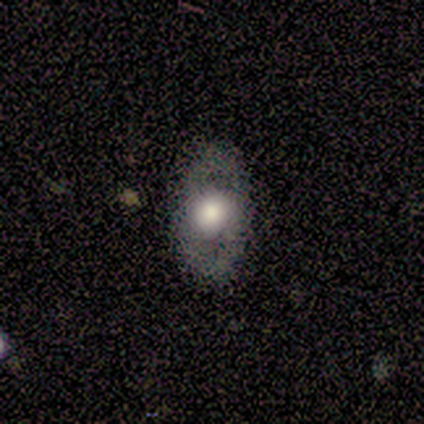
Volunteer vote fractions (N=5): Smooth or featured: featured or disk — 60% (smooth — 40%)
Edge-on disk: no — 67% (yes — 33%)
Bar: strong — 50% (tied with no — 50%)
Spiral arms: yes — 50% (tied with no — 50%)
Spiral winding: tight — 100%
Spiral arm count: 2 — 100%
Bulge size: large — 100%
Merging: none — 60% (major disturbance — 40%)